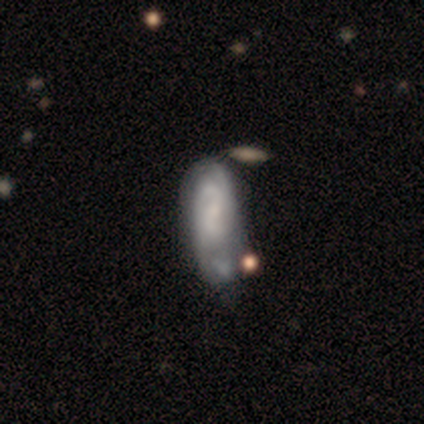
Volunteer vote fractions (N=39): This is likely a featured or disk galaxy (62%). It is clearly not viewed edge-on (83%). Bar: possibly weak (50%). Spiral arm pattern: clearly yes (85%). Spiral arm count: possibly 2 (47%). Spiral winding: possibly medium (59%). Central bulge: marginally none (35%). Merging: marginally minor disturbance (36%).